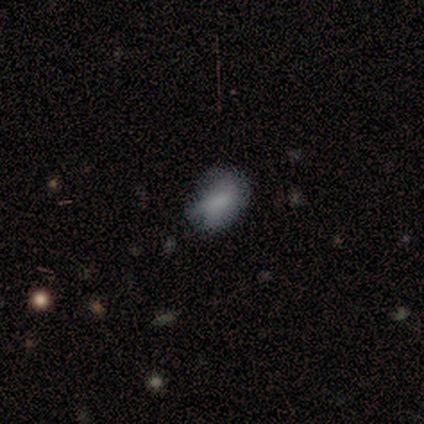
Volunteers were most divided on "smooth or featured" (2-way tie): smooth: 50%, featured or disk: 50%, star or artifact: 0%. More confident: how rounded — in between (100%); merging — minor disturbance (75%).